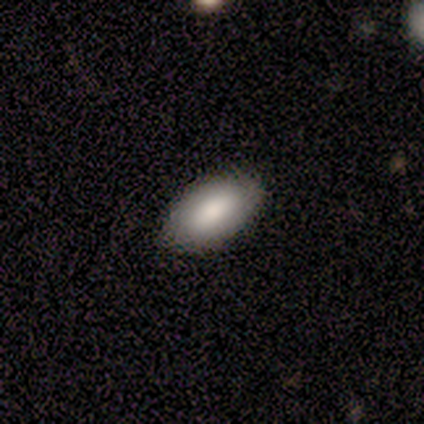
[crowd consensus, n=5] This is clearly a smooth galaxy (100%). How rounded: clearly in between (100%). Merging: clearly none (100%).